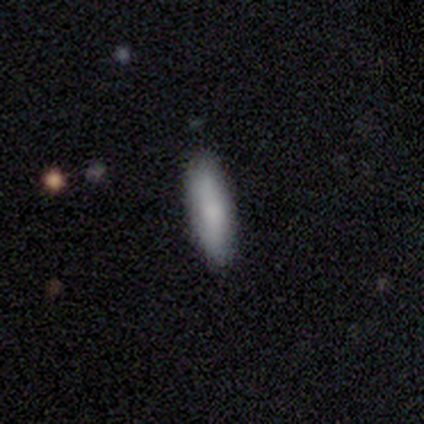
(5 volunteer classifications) Smooth or featured: smooth — 60% (featured or disk — 20%)
How rounded: cigar-shaped — 67% (in between — 33%)
Merging: none — 100%